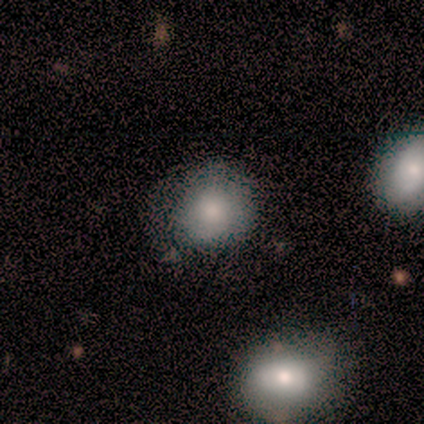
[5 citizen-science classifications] smooth_or_featured: smooth (p=1.00)
how_rounded: round (p=0.60) [alt: in between p=0.40]
merging: none (p=0.80) [alt: minor disturbance p=0.20]